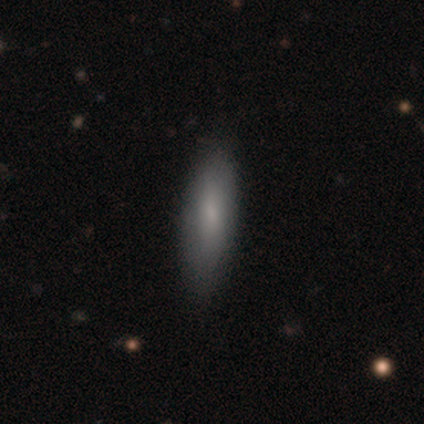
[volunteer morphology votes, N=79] Smooth or featured: smooth — 73% (featured or disk — 22%)
How rounded: cigar-shaped — 67% (in between — 33%)
Merging: none — 49% (minor disturbance — 7%)